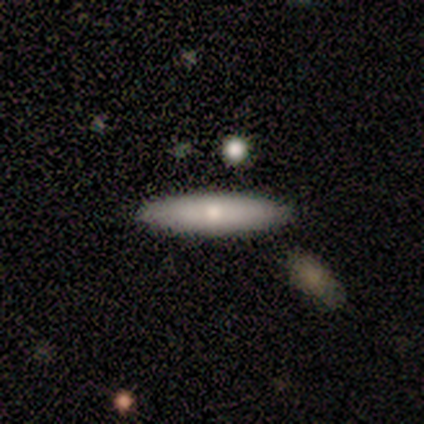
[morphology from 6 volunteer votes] Q: Smooth or featured?
A: smooth (83%); runner-up: featured or disk (17%)
Q: How rounded?
A: cigar-shaped (80%); runner-up: in between (20%)
Q: Merging?
A: none (100%)